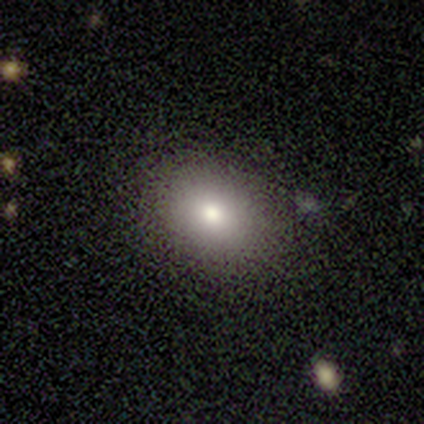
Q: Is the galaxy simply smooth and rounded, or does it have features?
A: smooth — 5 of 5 (100%).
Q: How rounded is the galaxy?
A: round — 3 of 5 (60%).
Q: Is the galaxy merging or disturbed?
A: none — 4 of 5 (80%).